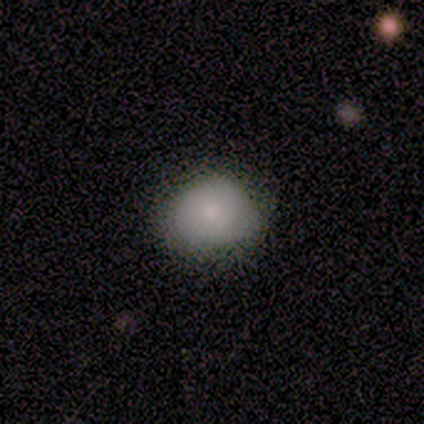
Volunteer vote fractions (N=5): Smooth or featured? smooth (80%)
How rounded? round (50%, tied with in between)
Merging? none (100%)